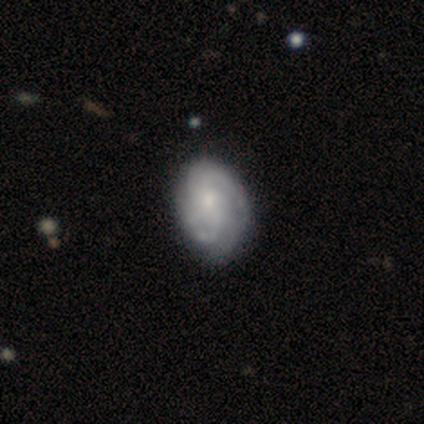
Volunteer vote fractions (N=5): Smooth or featured: featured or disk — 60% (star or artifact — 40%)
Edge-on disk: no — 100%
Bar: weak — 67% (no — 33%)
Spiral arms: yes — 100%
Spiral winding: loose — 67% (medium — 33%)
Spiral arm count: can't tell — 67% (2 — 33%)
Bulge size: moderate — 67% (small — 33%)
Merging: none — 33% (tied with minor disturbance — 33%; major disturbance — 33%)